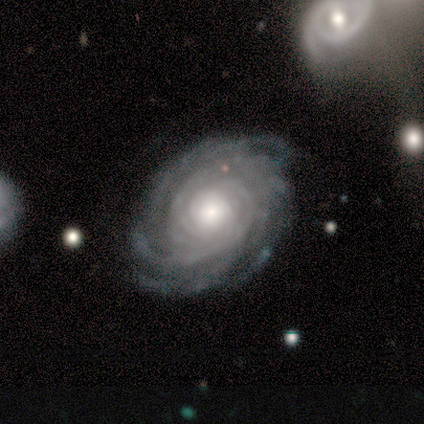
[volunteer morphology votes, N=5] smooth_or_featured: featured or disk (p=1.00)
disk_edge_on: no (p=1.00)
bar: no (p=0.60) [alt: weak p=0.40]
has_spiral_arms: yes (p=1.00)
spiral_winding: tight (p=0.80) [alt: medium p=0.20]
spiral_arm_count: more than 4 (p=0.80) [alt: 3 p=0.20]
bulge_size: moderate (p=0.60) [alt: large p=0.20]
merging: none (p=1.00)